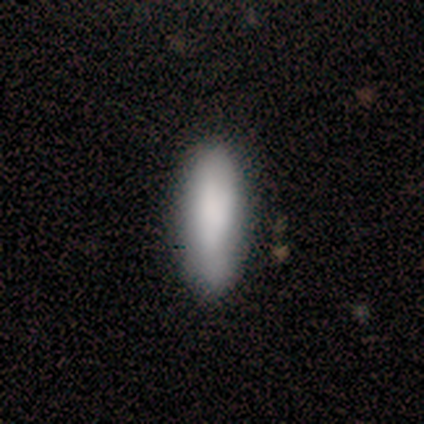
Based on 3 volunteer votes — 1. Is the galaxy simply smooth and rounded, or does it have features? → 67% featured or disk, 33% smooth, 0% star or artifact.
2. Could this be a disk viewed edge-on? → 100% no, 0% yes.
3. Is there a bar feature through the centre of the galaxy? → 50% weak (tied), 50% no (tied), 0% strong.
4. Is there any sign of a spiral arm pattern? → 50% yes (tied), 50% no (tied).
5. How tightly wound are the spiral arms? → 100% tight, 0% medium, 0% loose.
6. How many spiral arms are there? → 100% 1, 0% 2, 0% 3, 0% 4, 0% more than 4, 0% can't tell.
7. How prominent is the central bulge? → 50% dominant (tied), 50% small (tied), 0% large, 0% moderate, 0% none.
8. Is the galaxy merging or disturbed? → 100% none, 0% minor disturbance, 0% major disturbance, 0% merger.